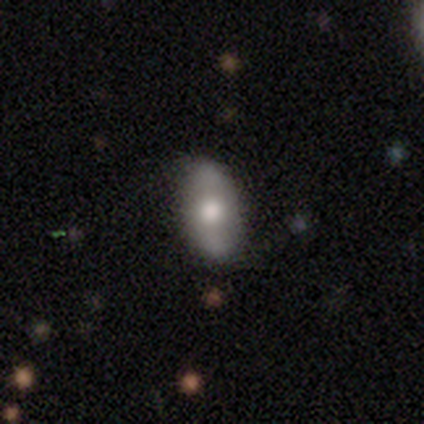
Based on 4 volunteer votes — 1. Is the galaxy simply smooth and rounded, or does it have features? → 50% featured or disk, 25% smooth, 25% star or artifact.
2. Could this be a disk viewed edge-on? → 100% no, 0% yes.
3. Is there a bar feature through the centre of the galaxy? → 100% weak, 0% strong, 0% no.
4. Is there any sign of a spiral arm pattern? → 100% yes, 0% no.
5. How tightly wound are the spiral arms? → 100% loose, 0% tight, 0% medium.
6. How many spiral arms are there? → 100% 2, 0% 1, 0% 3, 0% 4, 0% more than 4, 0% can't tell.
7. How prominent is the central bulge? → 50% large (tied), 50% moderate (tied), 0% dominant, 0% small, 0% none.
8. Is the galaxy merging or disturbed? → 67% none, 33% minor disturbance, 0% major disturbance, 0% merger.